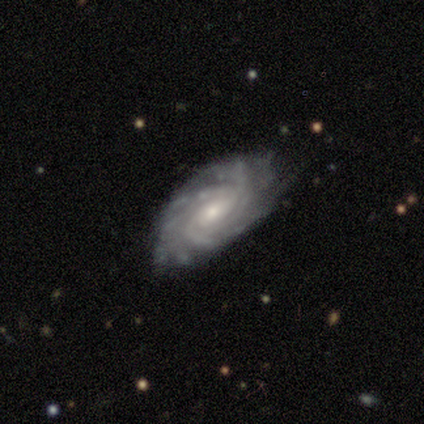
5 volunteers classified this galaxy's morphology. This is clearly a featured or disk galaxy (80%). It is clearly not viewed edge-on (100%). Bar: clearly no (100%). Spiral arm pattern: clearly yes (100%). Spiral arm count: possibly 4 (50%, tied with can't tell). Spiral winding: clearly tight (100%). Central bulge: likely small (75%). Merging: clearly none (100%).